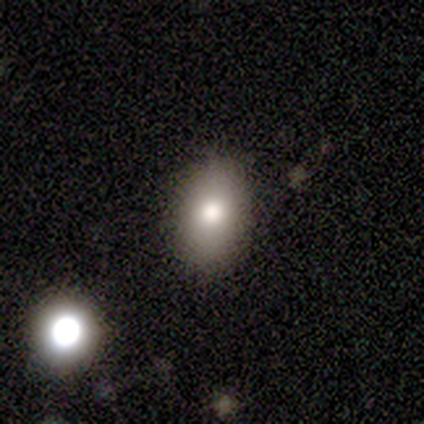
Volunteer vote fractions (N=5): smooth_or_featured: smooth (p=0.80) [alt: star or artifact p=0.20]
how_rounded: round (p=0.50) [alt: in between p=0.25]
merging: none (p=1.00)